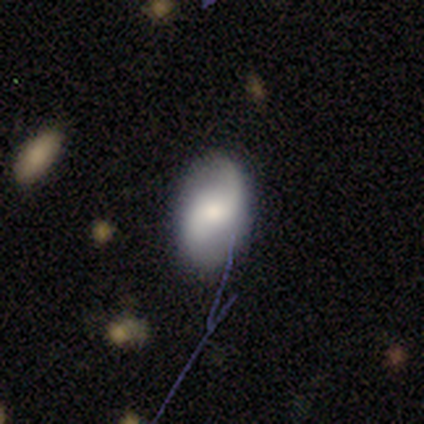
Smooth or featured?
  - featured or disk: 60% *
  - smooth: 20%
  - star or artifact: 20%
Edge-on disk?
  - no: 100% *
  - yes: 0%
Bar?
  - no: 67% *
  - weak: 33%
  - strong: 0%
Spiral arms?
  - yes: 100% *
  - no: 0%
Spiral winding?
  - loose: 67% *
  - medium: 33%
  - tight: 0%
Spiral arm count?
  - 2: 100% *
  - 1: 0%
  - 3: 0%
  - 4: 0%
  - more than 4: 0%
  - can't tell: 0%
Bulge size?
  - moderate: 33% * (tied)
  - small: 33% * (tied)
  - none: 33% * (tied)
  - dominant: 0%
  - large: 0%
Merging?
  - none: 100% *
  - minor disturbance: 0%
  - major disturbance: 0%
  - merger: 0%